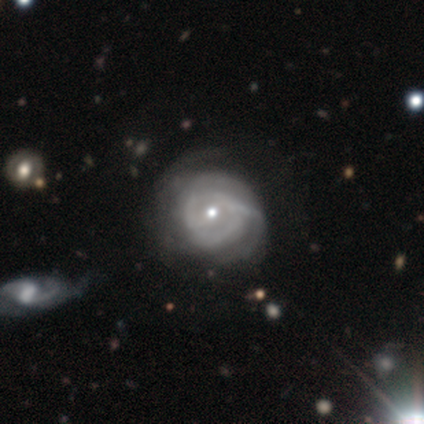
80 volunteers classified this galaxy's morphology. This is clearly a featured or disk galaxy (81%). It is clearly not viewed edge-on (98%). Bar: likely no (62%). Spiral arm pattern: clearly yes (84%). Spiral arm count: possibly can't tell (57%). Spiral winding: possibly tight (57%). Central bulge: likely small (61%). Merging: marginally none (24%).